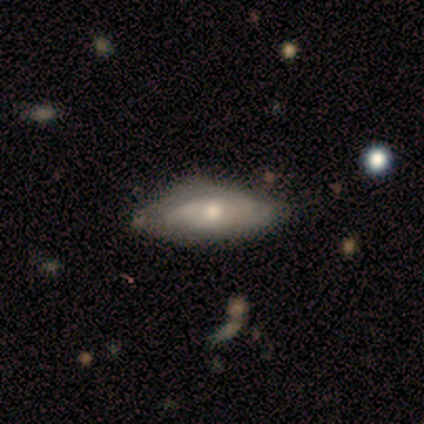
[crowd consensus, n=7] Smooth or featured?
  - featured or disk: 71% *
  - smooth: 29%
  - star or artifact: 0%
Edge-on disk?
  - no: 100% *
  - yes: 0%
Bar?
  - no: 100% *
  - strong: 0%
  - weak: 0%
Spiral arms?
  - yes: 100% *
  - no: 0%
Spiral winding?
  - tight: 80% *
  - medium: 20%
  - loose: 0%
Spiral arm count?
  - 2: 40% * (tied)
  - can't tell: 40% * (tied)
  - 1: 20%
  - 3: 0%
  - 4: 0%
  - more than 4: 0%
Bulge size?
  - moderate: 60% *
  - small: 40%
  - dominant: 0%
  - large: 0%
  - none: 0%
Merging?
  - minor disturbance: 57% *
  - none: 43%
  - major disturbance: 0%
  - merger: 0%